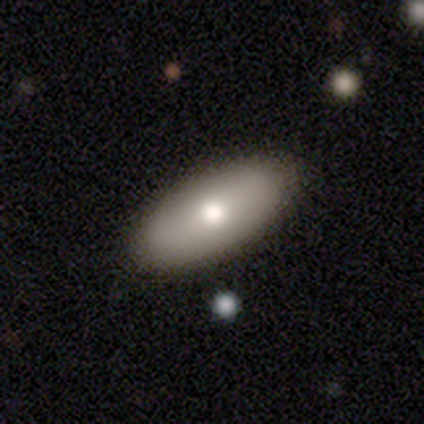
Overall: smooth (76%). How rounded: in between (96%). Merging: none (67%).